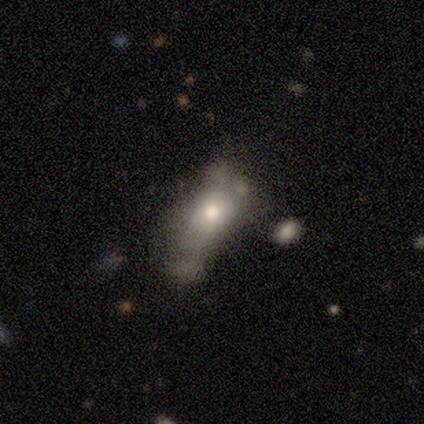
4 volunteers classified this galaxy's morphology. Volunteers were most divided on "bulge size": moderate: 67%, small: 33%, dominant: 0%, large: 0%, none: 0%. More confident: edge-on disk — no (100%); bar — no (100%); spiral arms — no (100%); smooth or featured — featured or disk (75%); merging — major disturbance (75%).